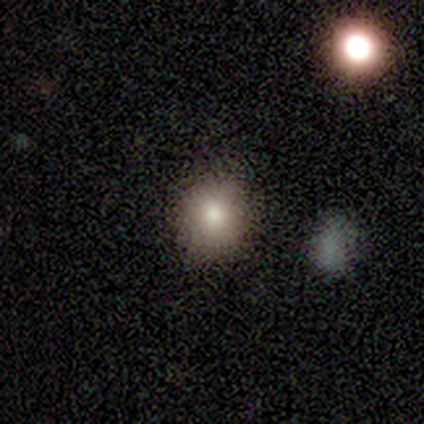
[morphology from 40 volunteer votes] A smooth galaxy with no disk features (70%) that is round (89%).

Vote fractions:
- Smooth or featured? smooth: 70% / featured or disk: 15% / star or artifact: 15%
- How rounded? round: 89% / in between: 11% / cigar-shaped: 0%
- Merging? none: 94% / minor disturbance: 3% / major disturbance: 3% / merger: 0%